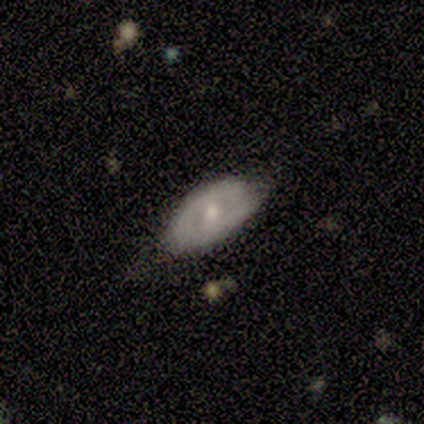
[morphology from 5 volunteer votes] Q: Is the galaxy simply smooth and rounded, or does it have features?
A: featured or disk — 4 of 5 (80%).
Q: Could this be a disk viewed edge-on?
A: no — 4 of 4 (100%).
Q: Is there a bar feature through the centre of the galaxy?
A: weak — 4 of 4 (100%).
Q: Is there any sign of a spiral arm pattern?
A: no — 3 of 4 (75%).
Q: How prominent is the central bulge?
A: moderate — 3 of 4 (75%).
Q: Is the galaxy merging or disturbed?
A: none — 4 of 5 (80%).